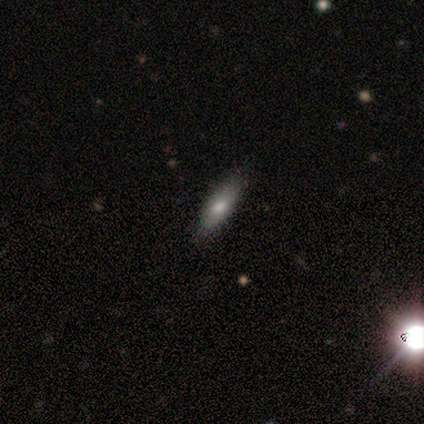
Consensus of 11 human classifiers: Morphology: type=smooth (73%); roundness=in between (62%); merging=none (80%).